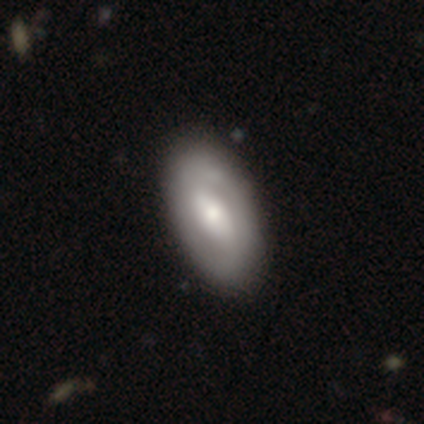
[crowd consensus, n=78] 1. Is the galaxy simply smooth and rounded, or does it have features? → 59% featured or disk, 36% smooth, 5% star or artifact.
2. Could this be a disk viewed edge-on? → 100% no, 0% yes.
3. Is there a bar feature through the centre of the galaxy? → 48% weak, 30% strong, 22% no.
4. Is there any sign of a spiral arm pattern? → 52% yes, 48% no.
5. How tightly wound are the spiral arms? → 54% tight, 33% medium, 12% loose.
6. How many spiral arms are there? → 71% 2, 25% can't tell, 4% 1, 0% 3, 0% 4, 0% more than 4.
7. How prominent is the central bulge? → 52% moderate, 28% small, 17% large, 2% dominant, 0% none.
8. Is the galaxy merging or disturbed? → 49% none, 12% minor disturbance, 3% major disturbance, 1% merger.